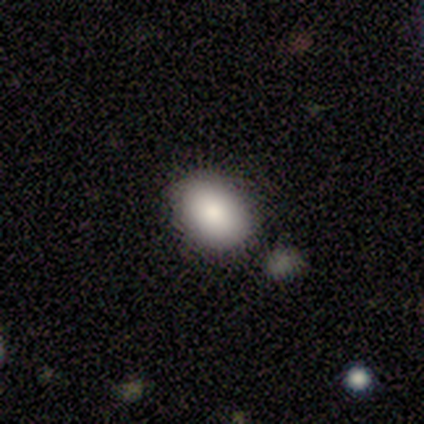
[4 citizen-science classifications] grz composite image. It shows a smooth galaxy with no disk features (75%) that is in between round and cigar-shaped (100%). Merging: none (100%).